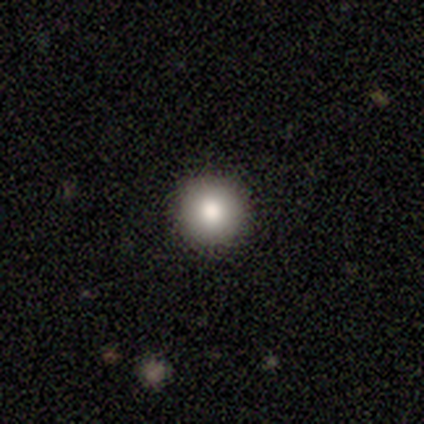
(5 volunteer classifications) Smooth or featured?
  - smooth: 60% *
  - featured or disk: 20%
  - star or artifact: 20%
How rounded?
  - round: 100% *
  - in between: 0%
  - cigar-shaped: 0%
Merging?
  - none: 100% *
  - minor disturbance: 0%
  - major disturbance: 0%
  - merger: 0%